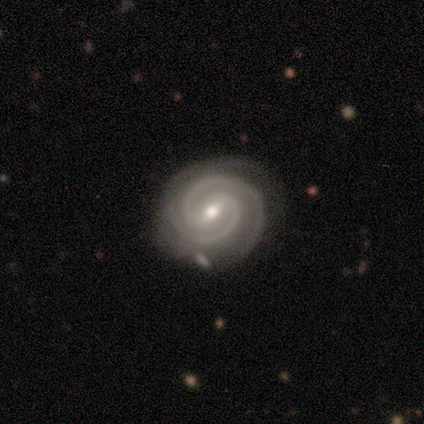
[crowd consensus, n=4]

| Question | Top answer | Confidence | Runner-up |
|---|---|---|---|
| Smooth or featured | featured or disk | 75% | smooth (25%) |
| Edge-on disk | no | 67% | yes (33%) |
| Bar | strong | 50% | tied: weak (50%) |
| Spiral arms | yes | 100% | — |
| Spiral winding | tight | 100% | — |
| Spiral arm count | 2 | 100% | — |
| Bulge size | small | 100% | — |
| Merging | none | 50% | major disturbance (25%) |